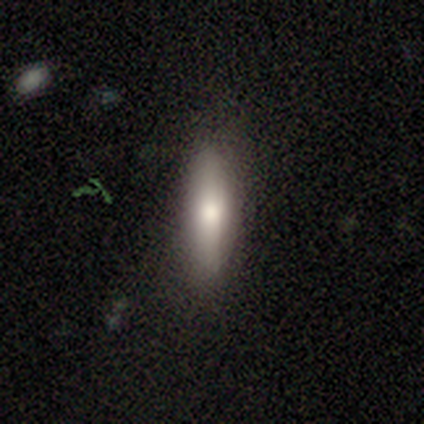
Smooth or featured: smooth — 83% (featured or disk — 17%)
How rounded: cigar-shaped — 60% (in between — 40%)
Merging: none — 100%